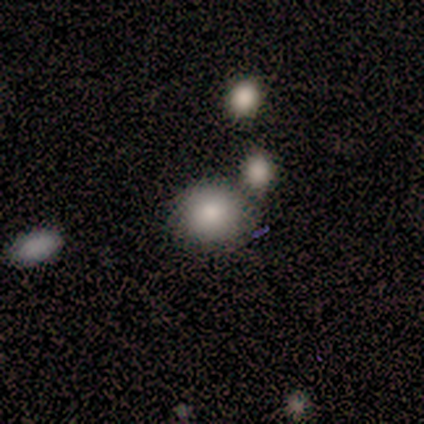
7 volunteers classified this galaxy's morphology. type=smooth (86%); roundness=round (83%); merging=none (83%).